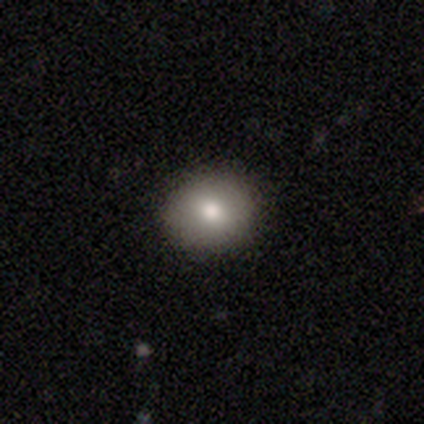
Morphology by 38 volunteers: smooth-or-featured: smooth: 89% | featured or disk: 8% | star or artifact: 3%
  how-rounded: round: 71% | in between: 29% | cigar-shaped: 0%
  merging: none: 97% | minor disturbance: 3% | major disturbance: 0% | merger: 0%